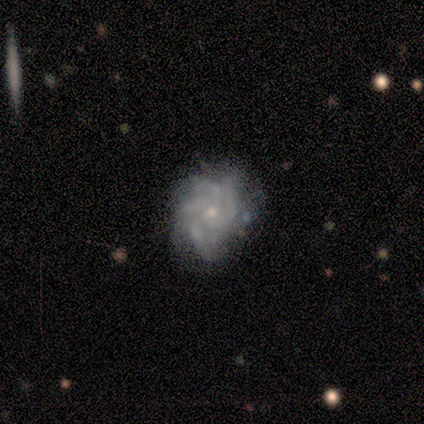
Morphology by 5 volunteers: This is clearly a featured or disk galaxy (100%). It is clearly not viewed edge-on (100%). Bar: clearly no (80%). Spiral arm pattern: clearly yes (100%). Spiral arm count: marginally 3 (40%, tied with can't tell). Spiral winding: likely tight (60%). Central bulge: clearly small (80%). Merging: likely none (60%).